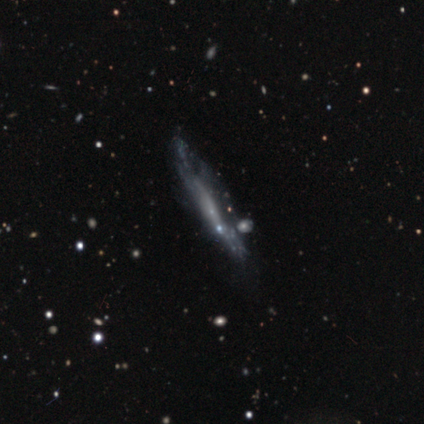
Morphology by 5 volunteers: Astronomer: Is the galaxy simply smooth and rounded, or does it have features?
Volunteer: featured or disk — 100%.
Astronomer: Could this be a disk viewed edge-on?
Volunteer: no — 60% (runner-up: yes, 40%).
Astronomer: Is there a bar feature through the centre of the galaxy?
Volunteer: no — 100%.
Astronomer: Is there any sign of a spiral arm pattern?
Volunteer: no — 67%.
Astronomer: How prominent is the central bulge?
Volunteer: small — 67%.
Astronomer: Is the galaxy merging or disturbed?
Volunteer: none — 80%.